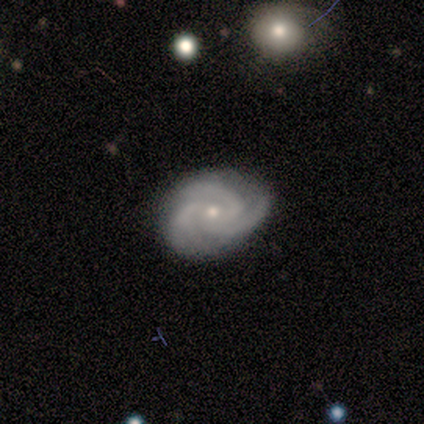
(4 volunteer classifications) smooth_or_featured: featured or disk (p=1.00)
disk_edge_on: no (p=0.75) [alt: yes p=0.25]
bar: weak (p=0.67) [alt: no p=0.33]
has_spiral_arms: yes (p=1.00)
spiral_winding: tight (p=0.67) [alt: loose p=0.33]
spiral_arm_count: 3 (p=0.67) [alt: 4 p=0.33]
bulge_size: small (p=0.67) [alt: moderate p=0.33]
merging: none (p=1.00)